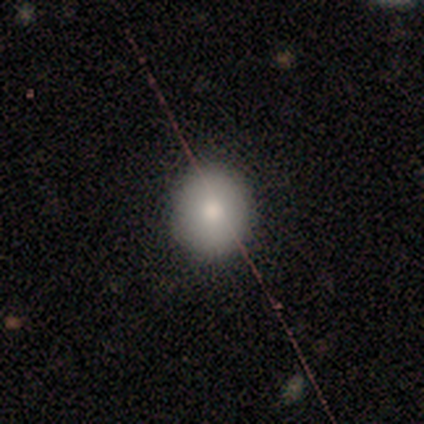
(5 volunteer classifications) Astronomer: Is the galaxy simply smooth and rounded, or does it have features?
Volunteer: smooth — 80%.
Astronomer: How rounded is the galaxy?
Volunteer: round — 75%.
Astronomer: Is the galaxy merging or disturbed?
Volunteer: none — 100%.